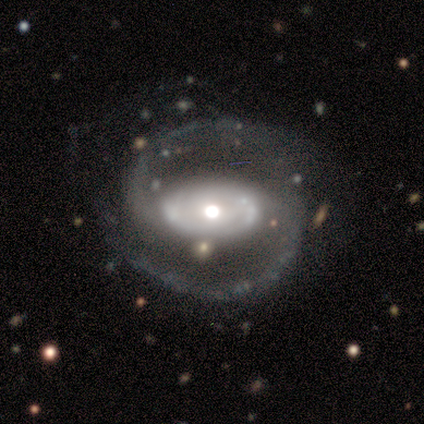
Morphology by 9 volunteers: This appears to be a featured or disk galaxy (100%) with a strong bar (62%), 2 (100%) medium (75%) spiral arms (100%) and a moderate central bulge (88%). Merging: none (89%).